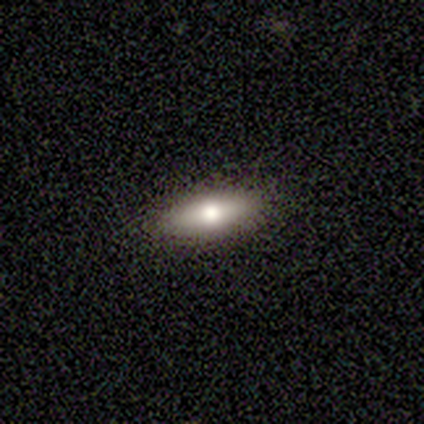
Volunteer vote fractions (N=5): Smooth or featured?
  - smooth: 60% *
  - featured or disk: 40%
  - star or artifact: 0%
How rounded?
  - in between: 100% *
  - round: 0%
  - cigar-shaped: 0%
Merging?
  - none: 100% *
  - minor disturbance: 0%
  - major disturbance: 0%
  - merger: 0%